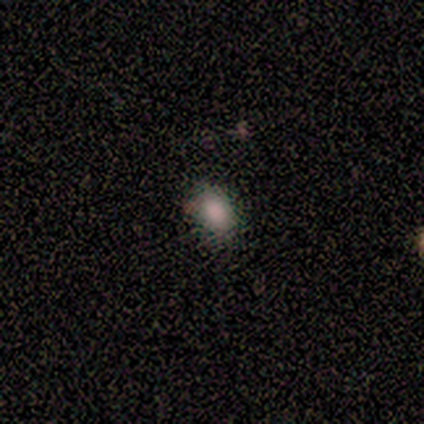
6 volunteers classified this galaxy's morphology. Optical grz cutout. It shows a smooth galaxy with no disk features (83%) that is in between round and cigar-shaped (60%). Merging: none (80%).